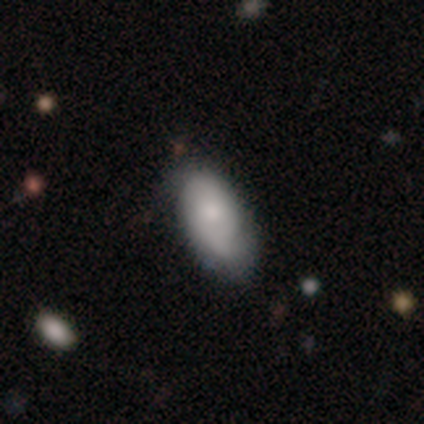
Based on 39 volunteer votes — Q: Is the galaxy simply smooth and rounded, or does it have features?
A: smooth — 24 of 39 (62%).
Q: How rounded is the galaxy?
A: in between — 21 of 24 (88%).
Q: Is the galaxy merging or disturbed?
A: none — 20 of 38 (53%).